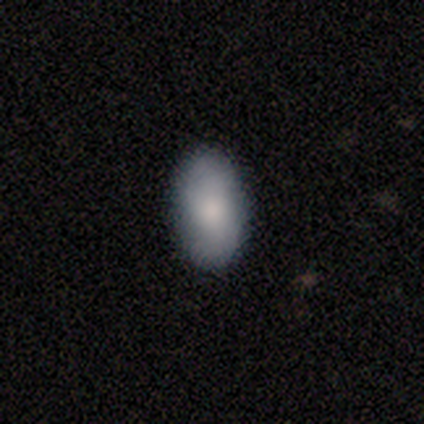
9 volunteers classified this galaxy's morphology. smooth 67%, featured or disk 33%, star or artifact 0%. Down the decision tree: how rounded — in between (100%); merging — none (67%).